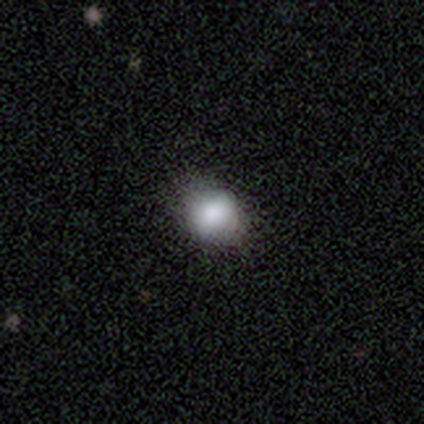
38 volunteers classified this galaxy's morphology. A smooth galaxy with no disk features (89%) that is in between round and cigar-shaped (53%).

Vote fractions:
- Smooth or featured? smooth: 89% / star or artifact: 8% / featured or disk: 3%
- How rounded? in between: 53% / round: 47% / cigar-shaped: 0%
- Merging? none: 37% / minor disturbance: 17% / major disturbance: 3% / merger: 0%